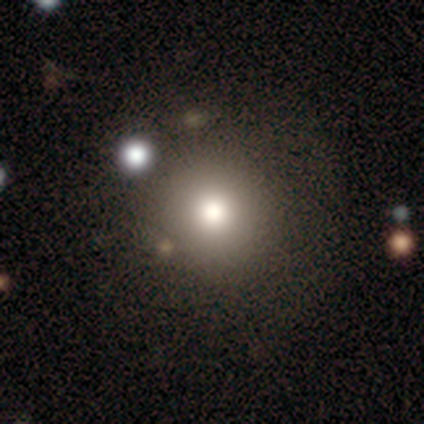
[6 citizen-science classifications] Overall: smooth (50%; star or artifact 33%). How rounded: round (100%). Merging: none (100%).